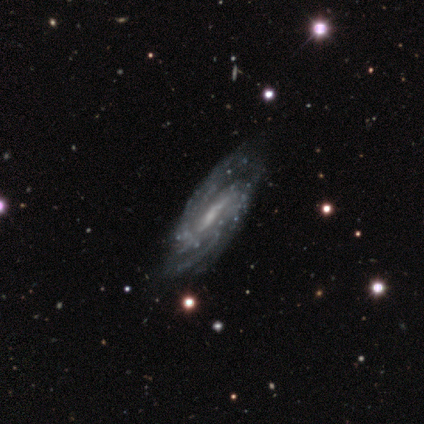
Smooth or featured: featured or disk — 100%
Edge-on disk: no — 100%
Bar: strong — 60% (weak — 20%)
Spiral arms: yes — 100%
Spiral winding: medium — 100%
Spiral arm count: can't tell — 60% (2 — 20%)
Bulge size: small — 60% (moderate — 20%)
Merging: none — 60% (minor disturbance — 40%)